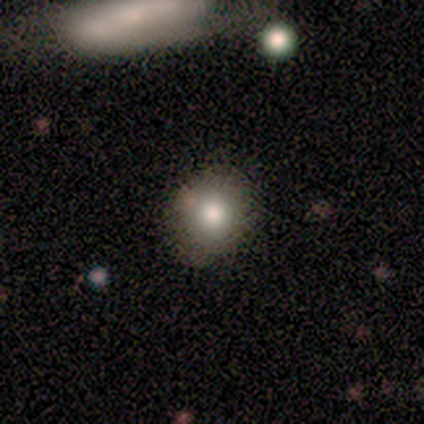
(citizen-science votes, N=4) Smooth or featured? 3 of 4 (75%) said smooth. How rounded? 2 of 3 (67%) said round. Merging? 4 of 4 (100%) said none.